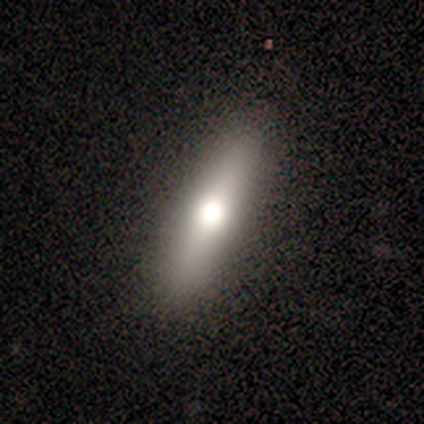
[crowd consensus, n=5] Smooth or featured?
  - featured or disk: 60% *
  - smooth: 20%
  - star or artifact: 20%
Edge-on disk?
  - yes: 100% *
  - no: 0%
Edge-on bulge?
  - rounded: 100% *
  - boxy: 0%
  - none: 0%
Merging?
  - none: 100% *
  - minor disturbance: 0%
  - major disturbance: 0%
  - merger: 0%